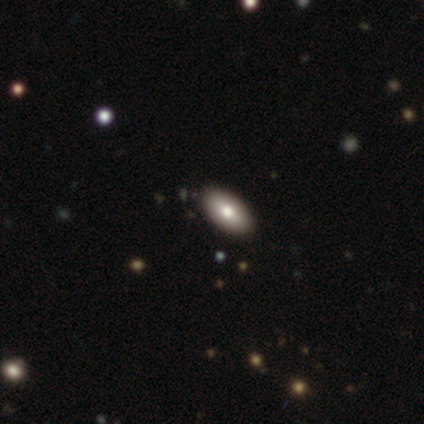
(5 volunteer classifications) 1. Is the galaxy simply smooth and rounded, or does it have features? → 60% smooth, 40% star or artifact, 0% featured or disk.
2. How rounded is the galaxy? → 100% in between, 0% round, 0% cigar-shaped.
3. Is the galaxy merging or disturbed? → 67% none, 33% minor disturbance, 0% major disturbance, 0% merger.